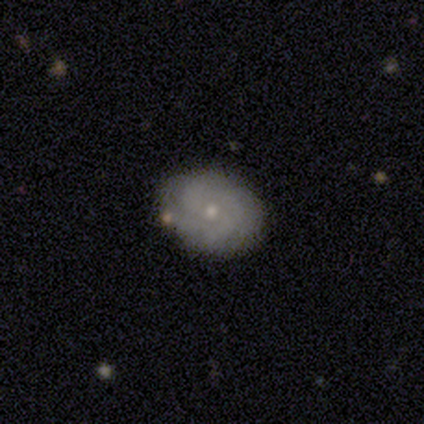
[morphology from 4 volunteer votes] type=featured or disk (50%, tied with star or artifact); edge-on=no (100%); bar=no (100%); spiral arms=yes (100%); winding=tight (100%); arm count=4 (50%, tied with can't tell); bulge=small (100%); merging=none (100%).